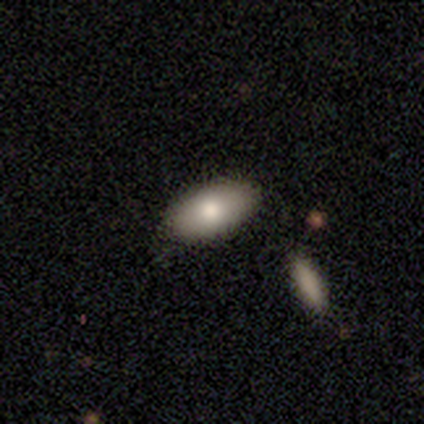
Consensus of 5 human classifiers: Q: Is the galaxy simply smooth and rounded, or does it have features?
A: smooth — 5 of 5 (100%).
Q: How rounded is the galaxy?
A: in between — 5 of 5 (100%).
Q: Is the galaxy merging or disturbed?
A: none — 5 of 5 (100%).